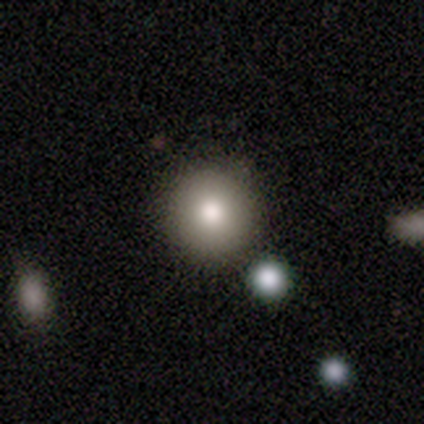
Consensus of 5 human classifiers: Smooth or featured? 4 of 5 (80%) said smooth. How rounded? 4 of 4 (100%) said round. Merging? 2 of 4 (50%) said none.